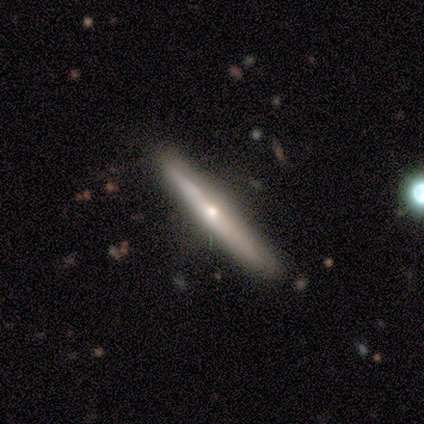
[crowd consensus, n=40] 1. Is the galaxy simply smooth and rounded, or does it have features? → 65% featured or disk, 35% smooth, 0% star or artifact.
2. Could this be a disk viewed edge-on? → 96% yes, 4% no.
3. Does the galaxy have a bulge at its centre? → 92% rounded, 8% none, 0% boxy.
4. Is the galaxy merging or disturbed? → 82% none, 15% minor disturbance, 2% major disturbance, 0% merger.